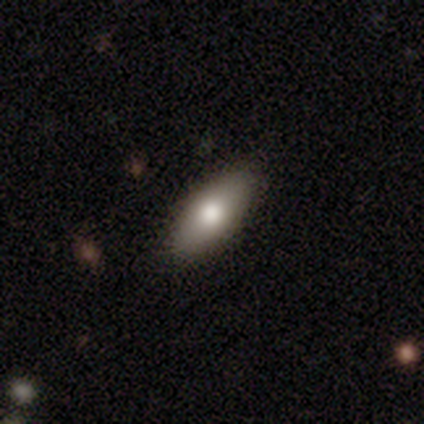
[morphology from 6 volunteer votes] This is clearly a smooth galaxy (100%). How rounded: likely in between (67%). Merging: clearly none (83%).